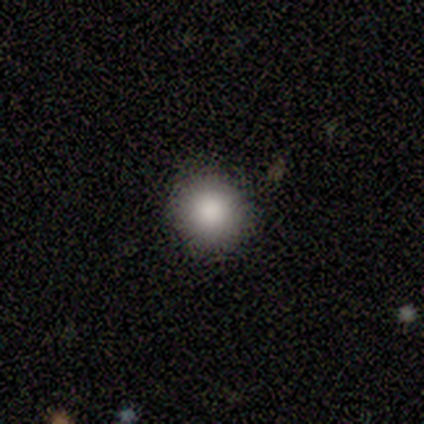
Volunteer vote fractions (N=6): Morphology: type=smooth (100%); roundness=round (100%); merging=none (83%).